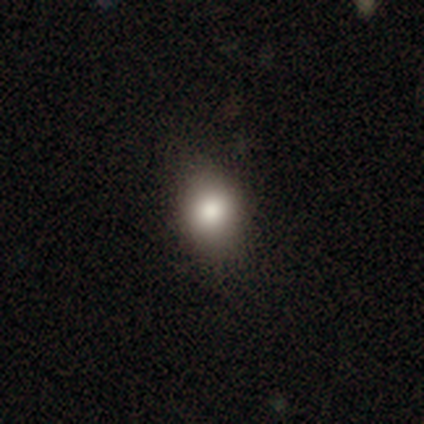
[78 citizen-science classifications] smooth-or-featured: smooth: 85% | featured or disk: 9% | star or artifact: 6%
  how-rounded: round: 50% (tied) | in between: 50% (tied) | cigar-shaped: 0%
  merging: none: 42% | minor disturbance: 10% | major disturbance: 0% | merger: 0%